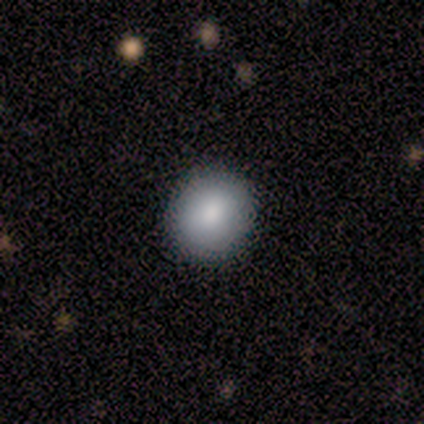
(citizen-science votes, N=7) smooth 100%, featured or disk 0%, star or artifact 0%. Down the decision tree: how rounded — round (86%); merging — none (71%).